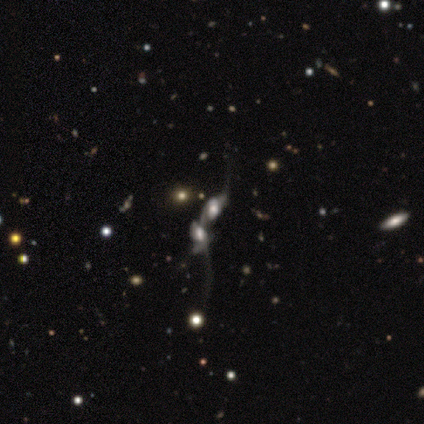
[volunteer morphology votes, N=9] featured or disk 89%, star or artifact 11%, smooth 0%. Down the decision tree: edge-on disk — no (100%); bar — weak (50%); spiral arms — yes (75%); spiral arm count — 2 (50%); spiral winding — loose (50%); bulge size — large (75%); merging — merger (100%).